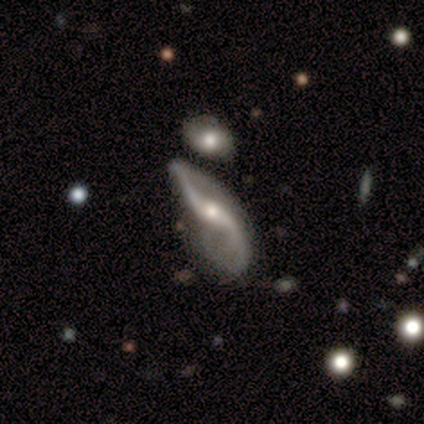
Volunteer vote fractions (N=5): Smooth or featured? 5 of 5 (100%) said featured or disk. Edge-on disk? 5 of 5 (100%) said no. Bar? 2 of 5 (40%, tied with no) said strong. Spiral arms? 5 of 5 (100%) said yes. Spiral winding? 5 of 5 (100%) said loose. Spiral arm count? 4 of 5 (80%) said 2. Bulge size? 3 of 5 (60%) said small. Merging? 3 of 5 (60%) said major disturbance.